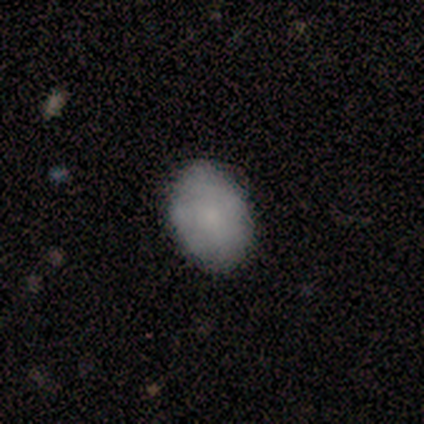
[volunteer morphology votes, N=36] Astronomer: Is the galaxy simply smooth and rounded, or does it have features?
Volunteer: smooth — 89%.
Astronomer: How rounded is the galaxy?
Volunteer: in between — 84%.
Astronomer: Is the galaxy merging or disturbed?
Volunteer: none — 74%.